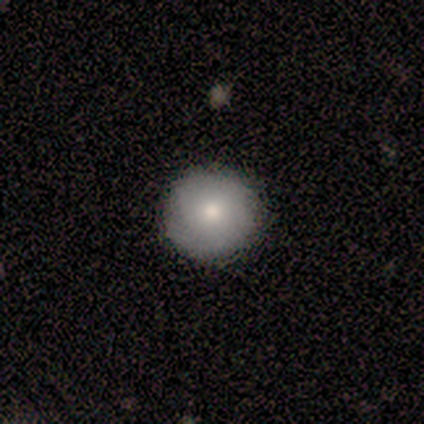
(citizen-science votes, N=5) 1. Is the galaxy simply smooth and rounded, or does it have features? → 80% smooth, 20% star or artifact, 0% featured or disk.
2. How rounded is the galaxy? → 100% round, 0% in between, 0% cigar-shaped.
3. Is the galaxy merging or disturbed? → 100% none, 0% minor disturbance, 0% major disturbance, 0% merger.